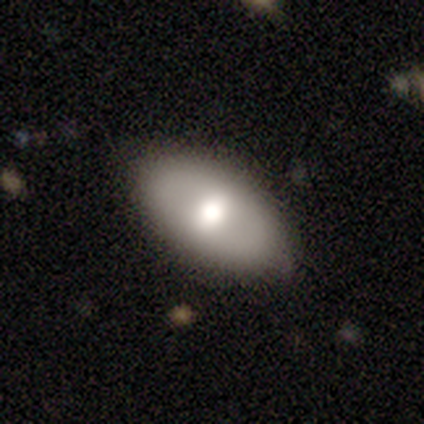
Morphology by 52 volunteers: Q: Smooth or featured?
A: smooth (73%); runner-up: featured or disk (21%)
Q: How rounded?
A: in between (87%); runner-up: round (8%)
Q: Merging?
A: none (82%); runner-up: minor disturbance (8%)